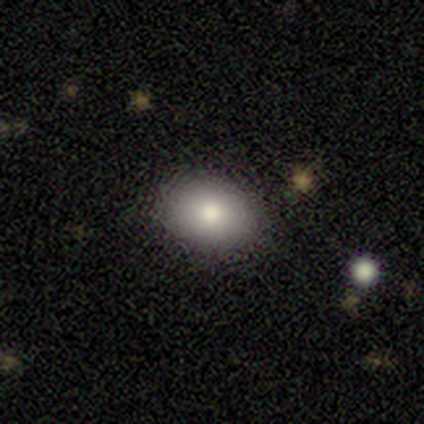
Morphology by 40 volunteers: Smooth or featured? smooth (90%)
How rounded? in between (64%)
Merging? none (90%)